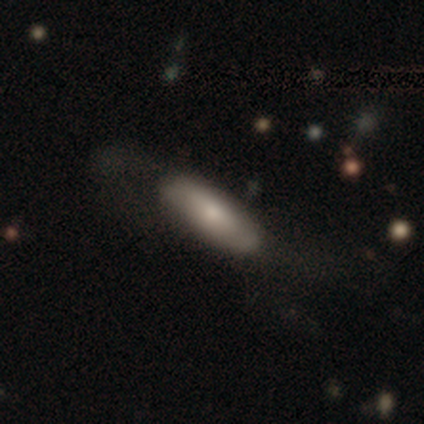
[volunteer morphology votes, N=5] A featured or disk galaxy (60%) with no bar (100%), no spiral arms (100%) and a small central bulge (50%, tied with none). Merging: none (40%, tied with minor disturbance).